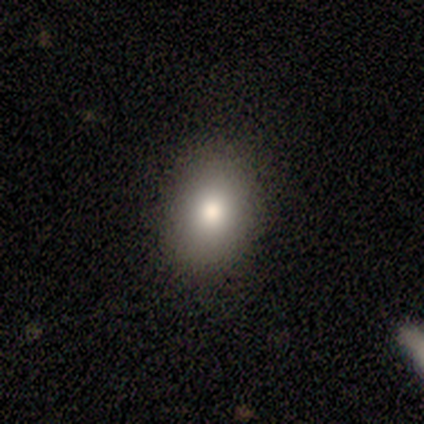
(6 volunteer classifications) smooth_or_featured: smooth (p=1.00)
how_rounded: round (p=0.50) [tied with: in between p=0.50]
merging: none (p=0.83) [alt: minor disturbance p=0.17]